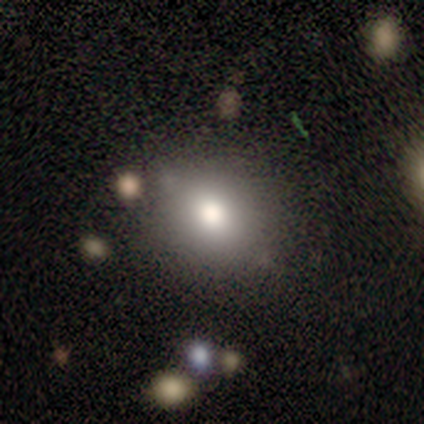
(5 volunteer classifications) smooth-or-featured: smooth: 100% | featured or disk: 0% | star or artifact: 0%
  how-rounded: round: 60% | in between: 40% | cigar-shaped: 0%
  merging: none: 80% | minor disturbance: 20% | major disturbance: 0% | merger: 0%